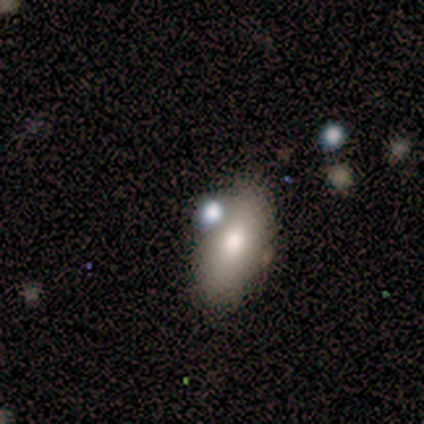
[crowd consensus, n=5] smooth 80%, featured or disk 20%, star or artifact 0%. Down the decision tree: how rounded — in between (100%); merging — none (60%).